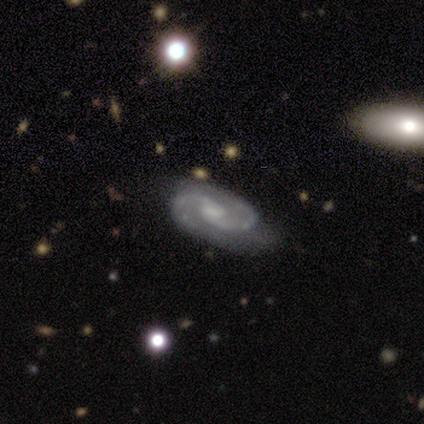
This appears to be a featured or disk galaxy (90%) with a weak bar (65%), 2 (97%) medium (49%) spiral arms (99%) and a moderate central bulge (36%). Merging: none (39%).